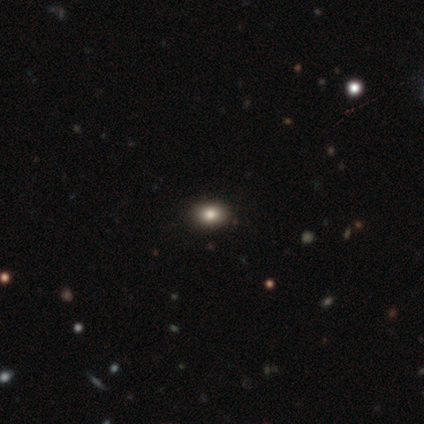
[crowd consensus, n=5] Q: Smooth or featured?
A: smooth (100%)
Q: How rounded?
A: round (60%); runner-up: in between (40%)
Q: Merging?
A: none (80%); runner-up: minor disturbance (20%)